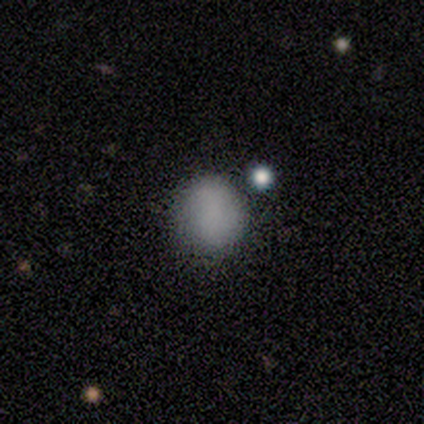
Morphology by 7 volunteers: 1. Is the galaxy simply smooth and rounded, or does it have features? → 100% smooth, 0% featured or disk, 0% star or artifact.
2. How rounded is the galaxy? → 71% round, 29% in between, 0% cigar-shaped.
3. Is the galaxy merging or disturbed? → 57% none, 29% merger, 14% minor disturbance, 0% major disturbance.